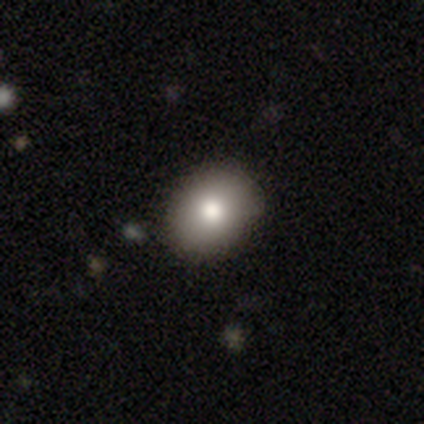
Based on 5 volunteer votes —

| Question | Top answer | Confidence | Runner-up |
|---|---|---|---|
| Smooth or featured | smooth | 80% | featured or disk (20%) |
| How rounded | round | 50% | tied: in between (50%) |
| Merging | none | 80% | minor disturbance (20%) |